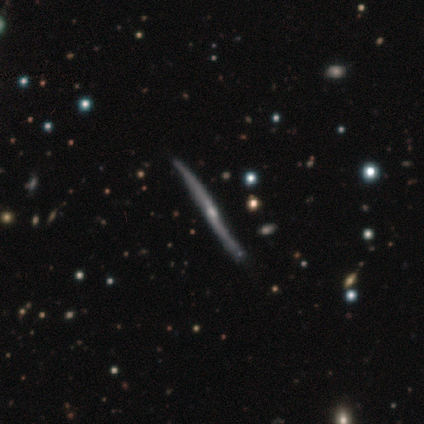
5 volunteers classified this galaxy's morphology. smooth_or_featured: featured or disk (p=0.60) [alt: smooth p=0.20]
disk_edge_on: yes (p=0.67) [alt: no p=0.33]
edge_on_bulge: boxy (p=0.50) [tied with: none p=0.50]
merging: none (p=0.75) [alt: minor disturbance p=0.25]